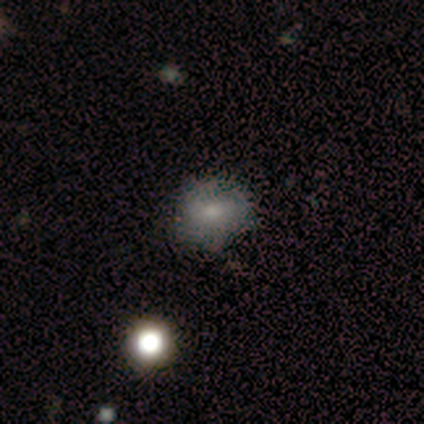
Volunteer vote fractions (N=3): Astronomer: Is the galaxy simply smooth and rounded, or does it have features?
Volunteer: featured or disk — 100%.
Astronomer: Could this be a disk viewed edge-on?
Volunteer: no — 100%.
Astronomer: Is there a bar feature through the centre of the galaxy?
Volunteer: no — 67%.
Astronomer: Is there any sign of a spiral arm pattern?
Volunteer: no — 67%.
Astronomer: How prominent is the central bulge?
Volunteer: moderate — 67%.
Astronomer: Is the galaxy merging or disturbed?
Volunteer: minor disturbance — 67%.